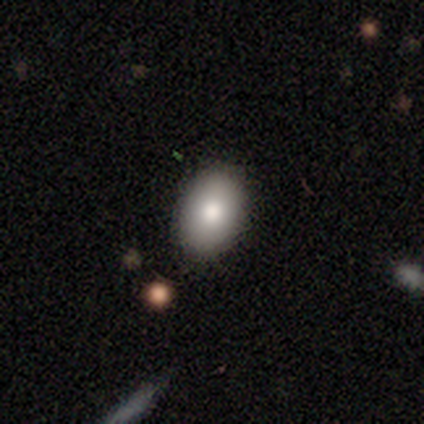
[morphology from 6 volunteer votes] A smooth galaxy with no disk features (100%) that is in between round and cigar-shaped (67%). Merging: none (83%).